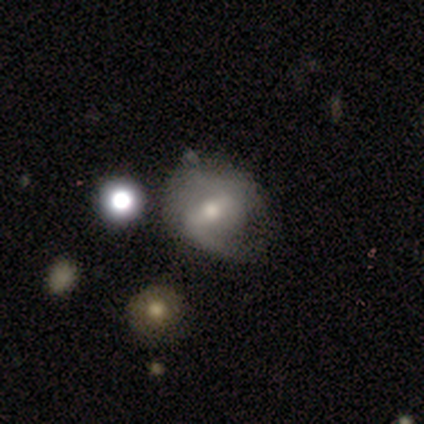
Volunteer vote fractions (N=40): smooth-or-featured: featured or disk: 60% | smooth: 25% | star or artifact: 15%
  disk-edge-on: no: 96% | yes: 4%
    bar: weak: 52% | strong: 39% | no: 9%
    has-spiral-arms: yes: 87% | no: 13%
      spiral-winding: loose: 60% | medium: 30% | tight: 10%
      spiral-arm-count: 2: 75% | 1: 20% | can't tell: 5% | 3: 0% | 4: 0% | more than 4: 0%
    bulge-size: moderate: 48% | small: 43% | dominant: 4% | large: 4% | none: 0%
  merging: none: 65% | minor disturbance: 21% | major disturbance: 12% | merger: 3%